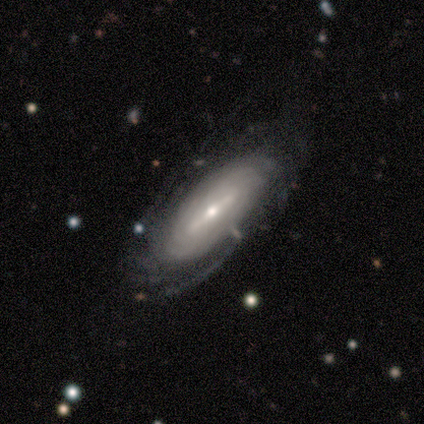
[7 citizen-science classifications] Morphology: type=featured or disk (86%); edge-on=no (100%); bar=weak (67%); spiral arms=yes (67%); winding=tight (100%); arm count=can't tell (50%); bulge=small (83%); merging=none (71%).